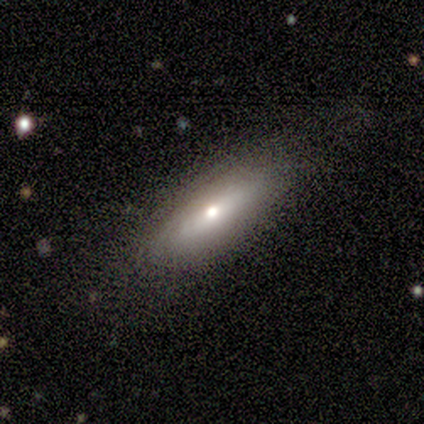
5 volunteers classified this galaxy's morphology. Overall: smooth (60%; featured or disk 20%). How rounded: in between (100%). Merging: none (100%).